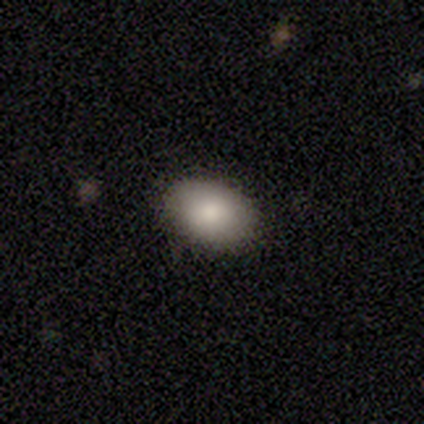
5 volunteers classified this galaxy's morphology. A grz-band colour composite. It shows a smooth galaxy with no disk features (100%) that is in between round and cigar-shaped (80%). Merging: none (80%).